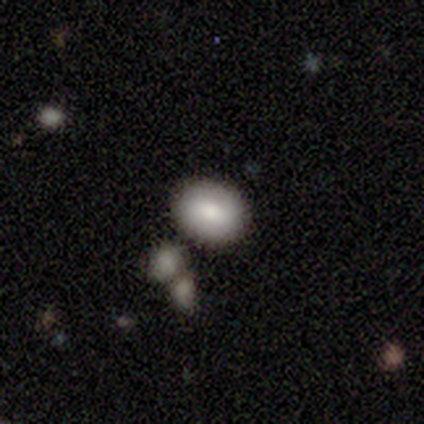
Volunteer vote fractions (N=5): Smooth or featured? smooth (80%)
How rounded? round (50%, tied with in between)
Merging? none (100%)